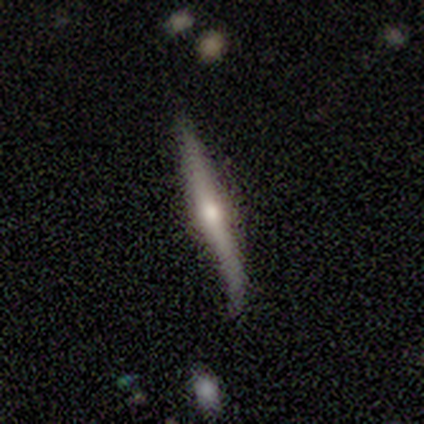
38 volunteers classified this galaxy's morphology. A featured or disk galaxy (79%) viewed edge-on (93%) with a rounded central bulge (89%).

Vote fractions:
- Smooth or featured? featured or disk: 79% / smooth: 18% / star or artifact: 3%
- Edge-on disk? yes: 93% / no: 7%
- Edge-on bulge? rounded: 89% / none: 7% / boxy: 4%
- Merging? none: 51% / minor disturbance: 35% / major disturbance: 8% / merger: 5%